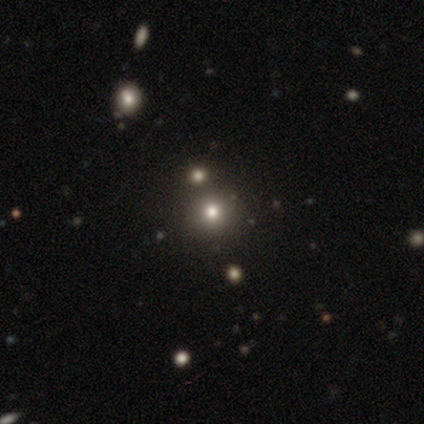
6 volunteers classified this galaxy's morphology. Smooth or featured: smooth — 83% (star or artifact — 17%)
How rounded: round — 100%
Merging: none — 100%